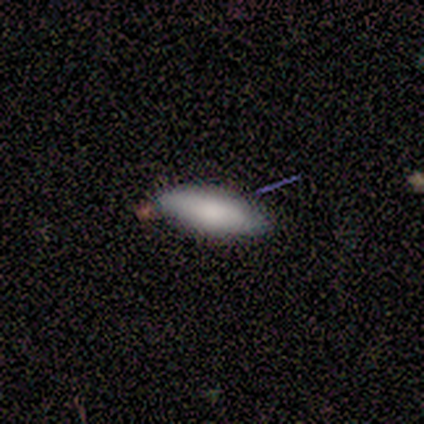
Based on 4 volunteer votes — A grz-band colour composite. It shows a smooth galaxy with no disk features (100%) that is in between round and cigar-shaped (50%, tied with cigar-shaped). Merging: none (75%).